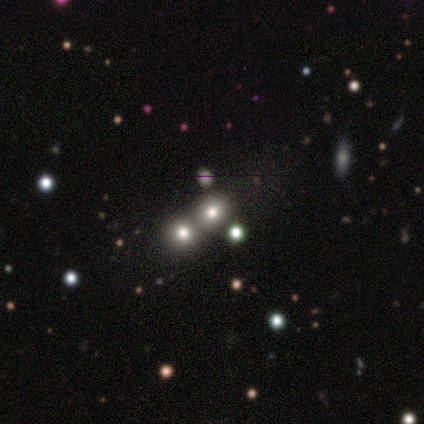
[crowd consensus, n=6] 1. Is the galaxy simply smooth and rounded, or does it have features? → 50% featured or disk, 33% smooth, 17% star or artifact.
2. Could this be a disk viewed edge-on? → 100% no, 0% yes.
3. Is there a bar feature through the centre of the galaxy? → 100% no, 0% strong, 0% weak.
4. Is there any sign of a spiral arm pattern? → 100% no, 0% yes.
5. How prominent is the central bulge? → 67% none, 33% large, 0% dominant, 0% moderate, 0% small.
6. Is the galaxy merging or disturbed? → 60% none, 40% merger, 0% minor disturbance, 0% major disturbance.